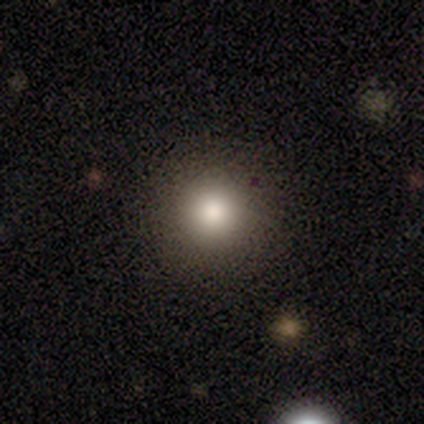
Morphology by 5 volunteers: type=smooth (100%); roundness=round (80%); merging=none (100%).